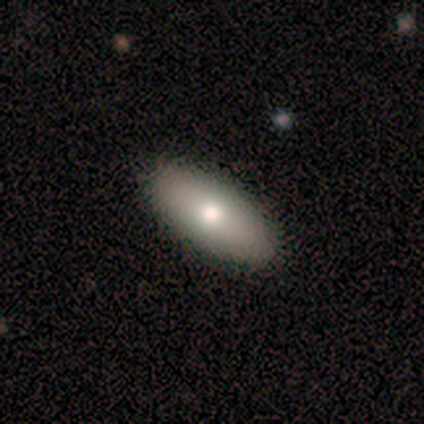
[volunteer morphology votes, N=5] smooth 60%, featured or disk 20%, star or artifact 20%. Down the decision tree: how rounded — in between (100%); merging — none (100%).